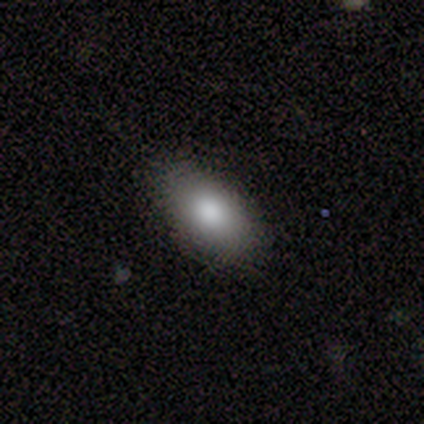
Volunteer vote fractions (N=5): Smooth or featured: smooth — 100%
How rounded: in between — 100%
Merging: none — 100%